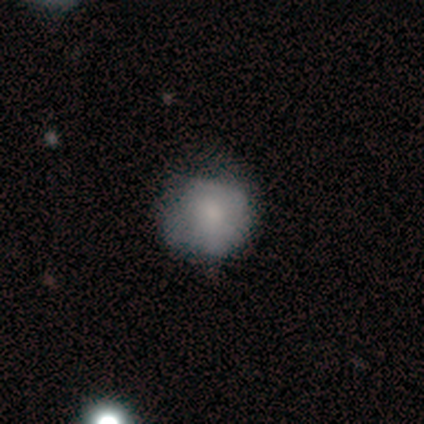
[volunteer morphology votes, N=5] A smooth galaxy with no disk features (40%, tied with featured or disk) that is round (100%).

Vote fractions:
- Smooth or featured? smooth: 40% (tied) / featured or disk: 40% (tied) / star or artifact: 20%
- How rounded? round: 100% / in between: 0% / cigar-shaped: 0%
- Merging? none: 75% / major disturbance: 25% / minor disturbance: 0% / merger: 0%